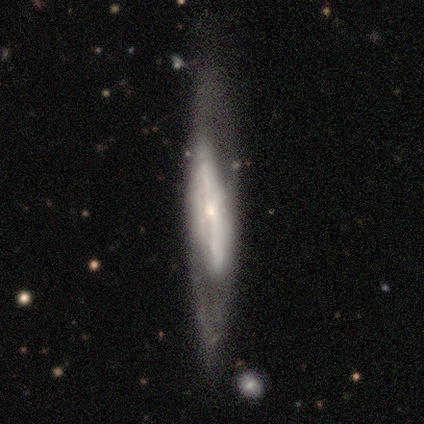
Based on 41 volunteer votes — Volunteers were most divided on "edge-on disk": no: 52%, yes: 48%. Remaining: smooth or featured — featured or disk (80%); merging — none (74%); bulge size — small (65%); spiral arm count — can't tell (56%); spiral winding — tight (56%); spiral arms — yes (53%); bar — strong (47%).